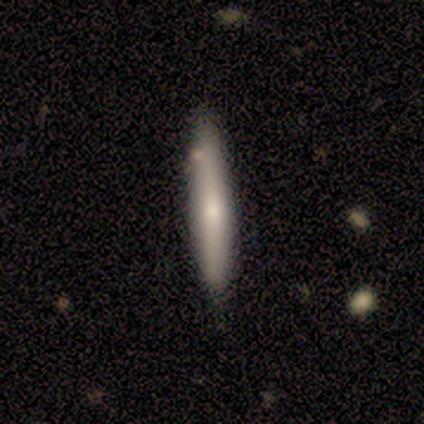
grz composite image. It shows a smooth galaxy with no disk features (60%) that is cigar-shaped (100%). Merging: none (80%).